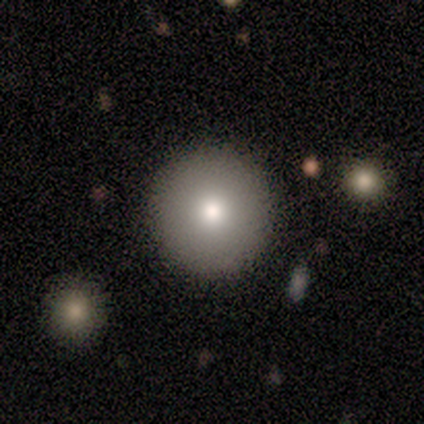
Smooth or featured?
  - smooth: 67% *
  - star or artifact: 33%
  - featured or disk: 0%
How rounded?
  - round: 100% *
  - in between: 0%
  - cigar-shaped: 0%
Merging?
  - none: 100% *
  - minor disturbance: 0%
  - major disturbance: 0%
  - merger: 0%